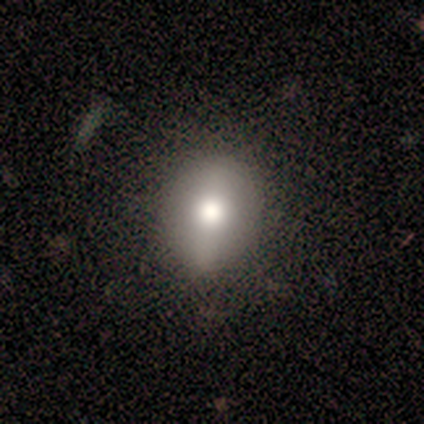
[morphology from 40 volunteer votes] Volunteers were most divided on "how rounded" (2-way tie): round: 50%, in between: 50%, cigar-shaped: 0%. More confident: merging — none (70%); smooth or featured — smooth (60%).